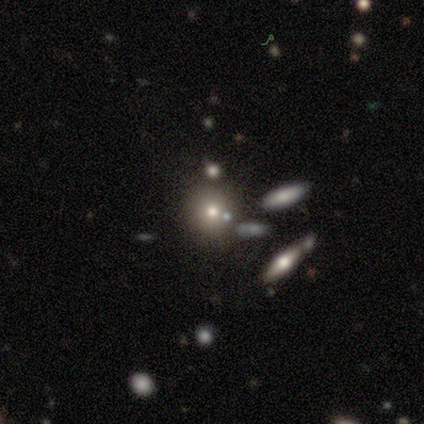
A smooth galaxy with no disk features (84%) that is round (74%).

Vote fractions:
- Smooth or featured? smooth: 84% / star or artifact: 11% / featured or disk: 5%
- How rounded? round: 74% / in between: 19% / cigar-shaped: 6%
- Merging? none: 79% / minor disturbance: 15% / merger: 6% / major disturbance: 0%